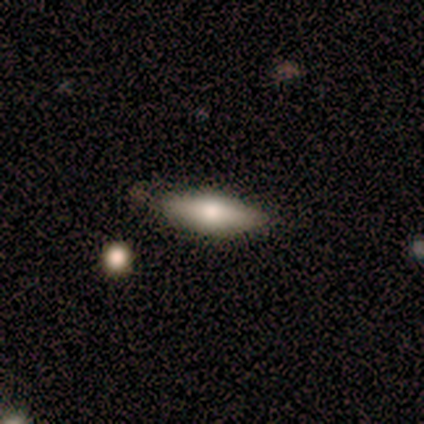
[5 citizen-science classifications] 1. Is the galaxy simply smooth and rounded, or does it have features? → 60% featured or disk, 40% smooth, 0% star or artifact.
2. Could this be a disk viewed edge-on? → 100% no, 0% yes.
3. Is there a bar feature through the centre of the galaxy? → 100% no, 0% strong, 0% weak.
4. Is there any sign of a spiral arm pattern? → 100% no, 0% yes.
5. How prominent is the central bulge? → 33% moderate (tied), 33% small (tied), 33% none (tied), 0% dominant, 0% large.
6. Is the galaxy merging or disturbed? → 60% none, 40% minor disturbance, 0% major disturbance, 0% merger.